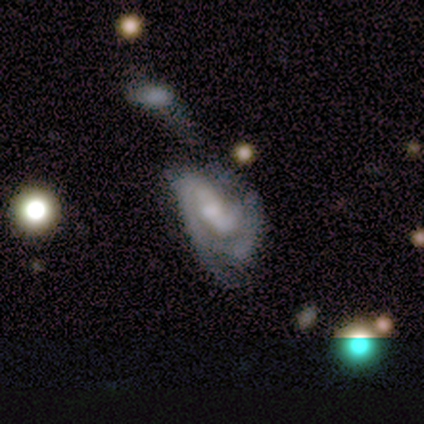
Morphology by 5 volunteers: This appears to be a featured or disk galaxy (100%) with a weak bar (60%), 2 (100%) medium (100%) spiral arms (60%) and a small central bulge (100%). Merging: merger (60%).